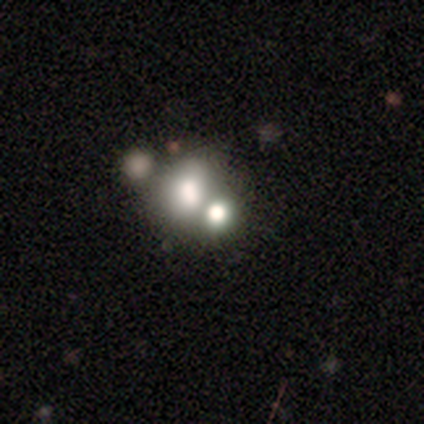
smooth 100%, featured or disk 0%, star or artifact 0%. Down the decision tree: how rounded — round (67%); merging — merger (83%).